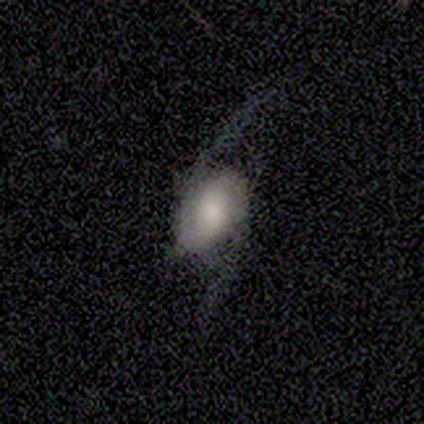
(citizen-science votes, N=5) Overall: featured or disk (60%; smooth 40%). Edge-on disk: no (100%). Bar: strong (67%; weak 33%). Spiral arms: yes (100%). Spiral arm count: 2 (100%). Spiral winding: loose (67%; medium 33%). Bulge size: large (33%, tied with moderate and none). Merging: none (40%, tied with minor disturbance).